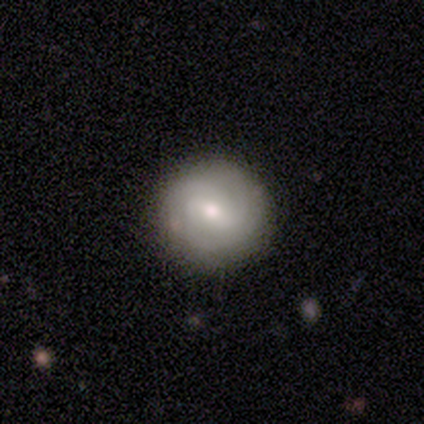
This is likely a featured or disk galaxy (75%). It is clearly not viewed edge-on (100%). Bar: marginally strong (33%, tied with weak and no). Spiral arm pattern: clearly yes (100%). Spiral arm count: likely 2 (67%). Spiral winding: likely tight (67%). Central bulge: likely moderate (67%). Merging: clearly none (100%).